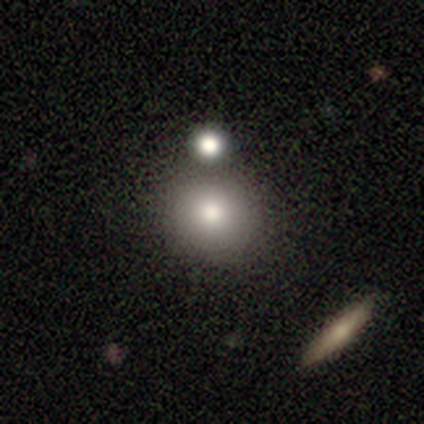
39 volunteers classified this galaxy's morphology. Q: Smooth or featured?
A: smooth (82%); runner-up: featured or disk (10%)
Q: How rounded?
A: round (88%); runner-up: in between (12%)
Q: Merging?
A: none (56%); runner-up: merger (19%)